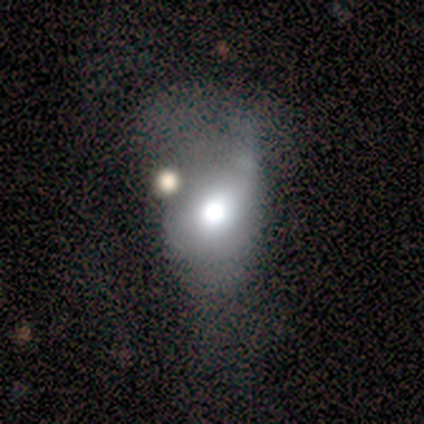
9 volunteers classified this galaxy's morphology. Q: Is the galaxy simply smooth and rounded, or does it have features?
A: smooth — 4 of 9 (44%, tied with featured or disk).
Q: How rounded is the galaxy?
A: round — 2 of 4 (50%, tied with in between).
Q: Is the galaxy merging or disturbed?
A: minor disturbance — 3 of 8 (38%, tied with major disturbance).